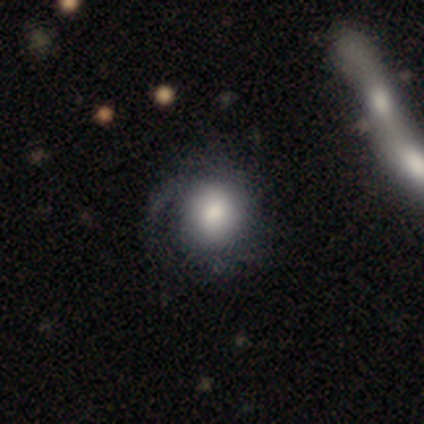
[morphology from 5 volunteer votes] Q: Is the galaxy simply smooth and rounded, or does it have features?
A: smooth — 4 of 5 (80%).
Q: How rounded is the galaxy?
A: round — 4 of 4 (100%).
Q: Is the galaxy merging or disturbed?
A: major disturbance — 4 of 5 (80%).